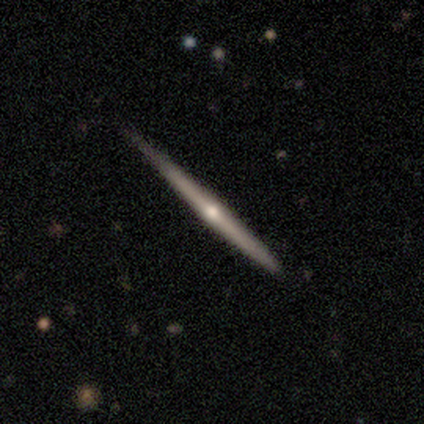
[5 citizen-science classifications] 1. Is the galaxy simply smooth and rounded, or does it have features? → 80% featured or disk, 20% smooth, 0% star or artifact.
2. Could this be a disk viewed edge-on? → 100% yes, 0% no.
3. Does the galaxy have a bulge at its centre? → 75% rounded, 25% none, 0% boxy.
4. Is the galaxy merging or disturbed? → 60% none, 40% minor disturbance, 0% major disturbance, 0% merger.